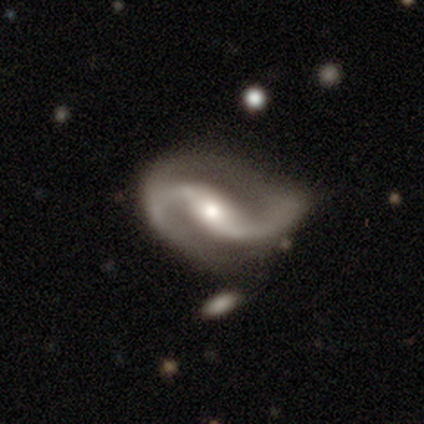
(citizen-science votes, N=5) Smooth or featured? featured or disk (100%)
Edge-on disk? no (100%)
Bar? weak (60%)
Spiral arms? yes (100%)
Spiral winding? loose (80%)
Spiral arm count? 2 (80%)
Bulge size? moderate (80%)
Merging? none (80%)